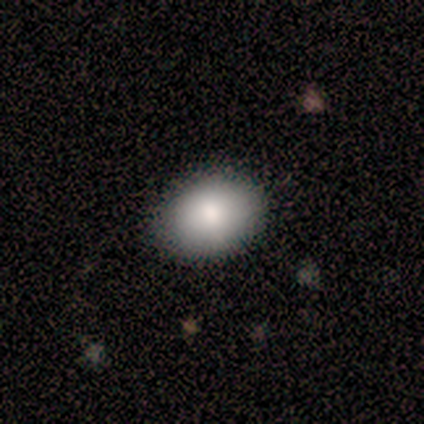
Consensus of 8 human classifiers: Smooth or featured?
  - smooth: 88% *
  - featured or disk: 12%
  - star or artifact: 0%
How rounded?
  - in between: 71% *
  - round: 29%
  - cigar-shaped: 0%
Merging?
  - none: 88% *
  - minor disturbance: 12%
  - major disturbance: 0%
  - merger: 0%